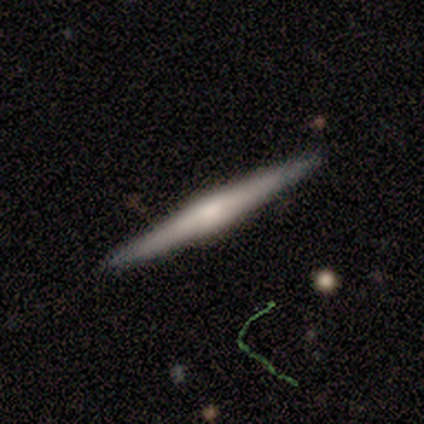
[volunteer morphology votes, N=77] Overall: featured or disk (75%). Edge-on disk: yes (98%). Edge-on bulge: rounded (67%). Merging: none (89%).